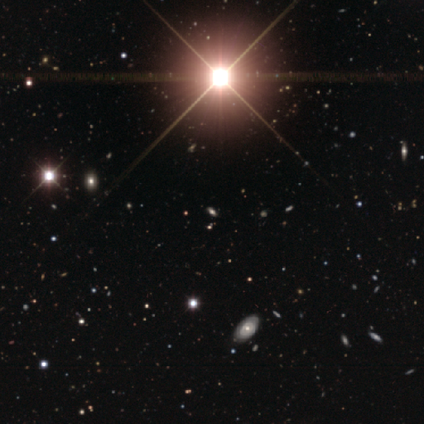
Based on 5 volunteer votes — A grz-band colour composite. It shows a star or artifact, not a galaxy (80%).